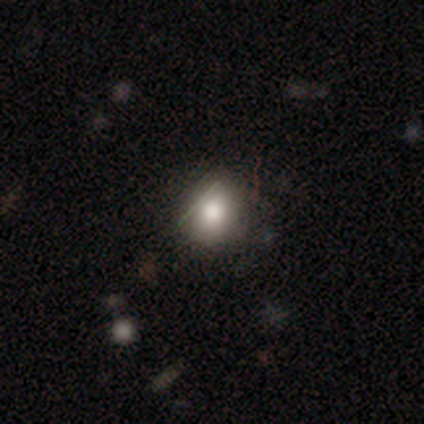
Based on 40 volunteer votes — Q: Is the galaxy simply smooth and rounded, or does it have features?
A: smooth — 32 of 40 (80%).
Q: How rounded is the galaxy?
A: round — 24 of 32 (75%).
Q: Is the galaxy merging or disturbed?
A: none — 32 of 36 (89%).